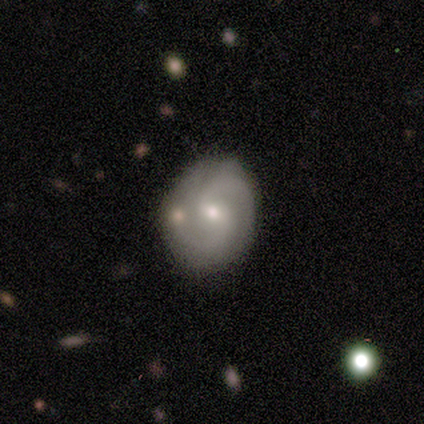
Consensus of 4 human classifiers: Volunteers were most divided on "spiral winding": tight: 67%, medium: 33%, loose: 0%. More confident: edge-on disk — no (100%); bar — weak (100%); spiral arms — yes (100%); spiral arm count — 2 (100%); smooth or featured — featured or disk (75%); merging — none (75%); bulge size — moderate (67%).